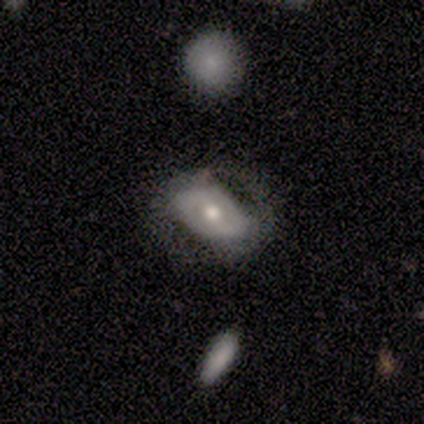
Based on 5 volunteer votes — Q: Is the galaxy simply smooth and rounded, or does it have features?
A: featured or disk — 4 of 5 (80%).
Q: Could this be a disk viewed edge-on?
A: no — 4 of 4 (100%).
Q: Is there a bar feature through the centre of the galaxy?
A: weak — 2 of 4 (50%).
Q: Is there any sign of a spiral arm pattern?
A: no — 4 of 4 (100%).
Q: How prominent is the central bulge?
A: moderate — 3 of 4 (75%).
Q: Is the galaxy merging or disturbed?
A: none — 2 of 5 (40%, tied with minor disturbance).